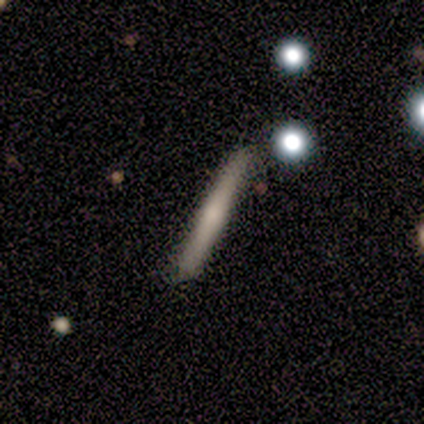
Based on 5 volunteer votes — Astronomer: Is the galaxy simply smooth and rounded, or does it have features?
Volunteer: smooth — 60% (runner-up: featured or disk, 40%).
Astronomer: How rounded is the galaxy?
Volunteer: cigar-shaped — 100%.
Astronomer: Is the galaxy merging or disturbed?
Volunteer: none — 60%.